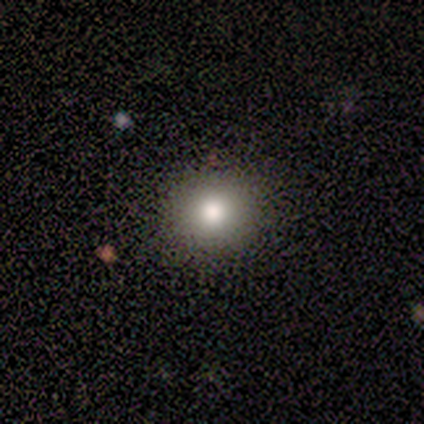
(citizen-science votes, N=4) A smooth galaxy with no disk features (75%) that is round (100%).

Vote fractions:
- Smooth or featured? smooth: 75% / featured or disk: 25% / star or artifact: 0%
- How rounded? round: 100% / in between: 0% / cigar-shaped: 0%
- Merging? none: 100% / minor disturbance: 0% / major disturbance: 0% / merger: 0%